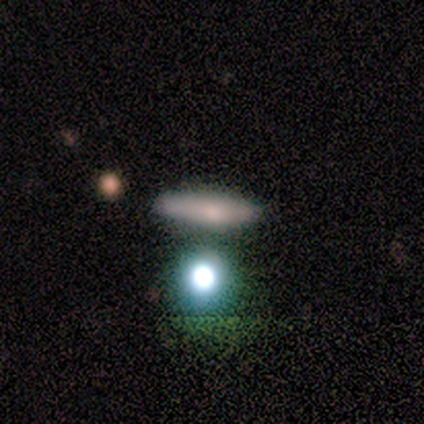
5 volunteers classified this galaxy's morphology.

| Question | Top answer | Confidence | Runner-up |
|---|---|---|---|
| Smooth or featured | featured or disk | 60% | smooth (20%) |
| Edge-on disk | yes | 67% | no (33%) |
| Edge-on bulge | none | 50% | tied: rounded (50%) |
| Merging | none | 75% | minor disturbance (25%) |